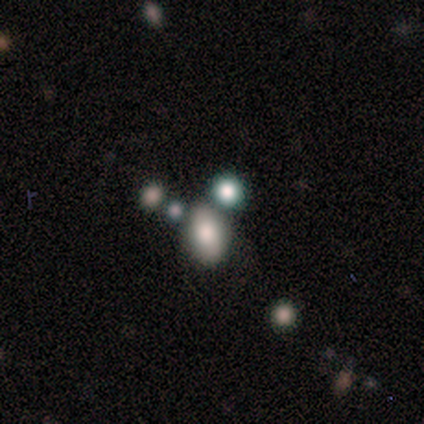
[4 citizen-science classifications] This is clearly a smooth galaxy (100%). How rounded: likely in between (75%). Merging: likely none (75%).